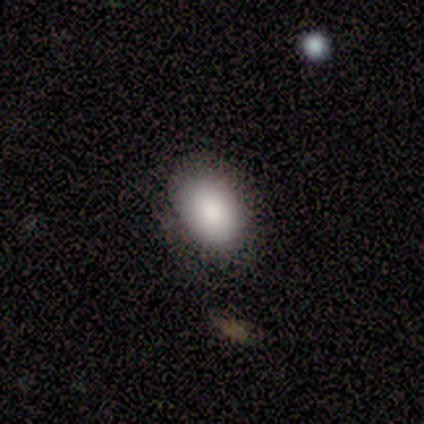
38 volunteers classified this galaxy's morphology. smooth_or_featured: smooth (p=0.76) [alt: star or artifact p=0.13]
how_rounded: in between (p=0.69) [alt: round p=0.31]
merging: none (p=0.76) [alt: minor disturbance p=0.15]